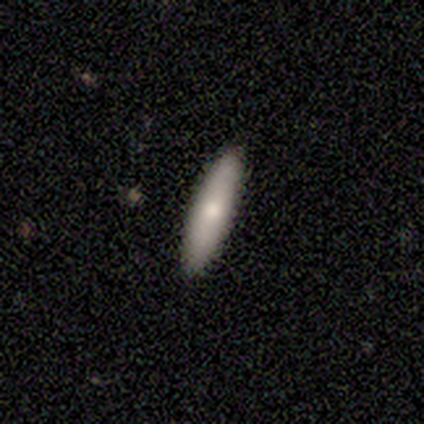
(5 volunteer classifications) Smooth or featured? smooth (80%)
How rounded? cigar-shaped (75%)
Merging? none (100%)